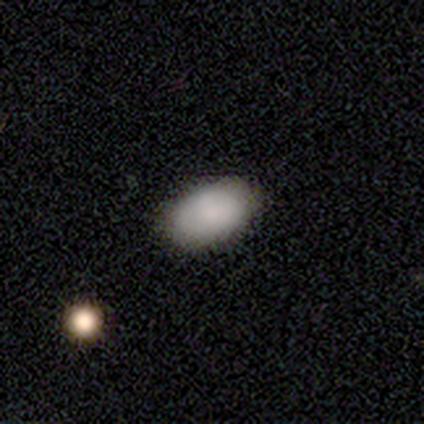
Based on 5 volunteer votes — Morphology: type=smooth (60%); roundness=in between (100%); merging=none (75%).